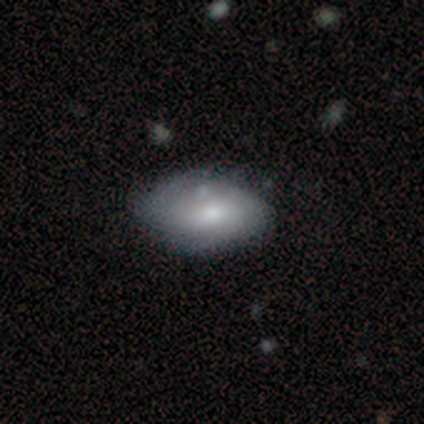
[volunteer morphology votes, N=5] Volunteers were most divided on "merging": none: 60%, minor disturbance: 40%, major disturbance: 0%, merger: 0%. More confident: how rounded — in between (100%); smooth or featured — smooth (80%).